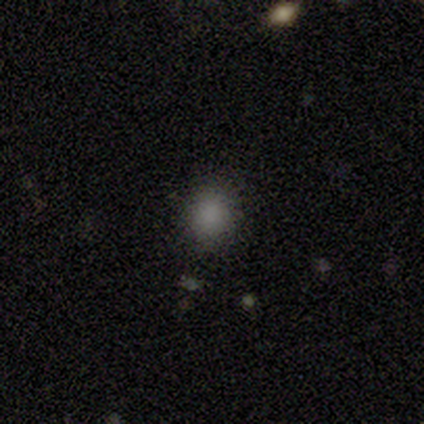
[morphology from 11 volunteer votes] This is clearly a smooth galaxy (82%). How rounded: likely round (78%). Merging: clearly none (89%).